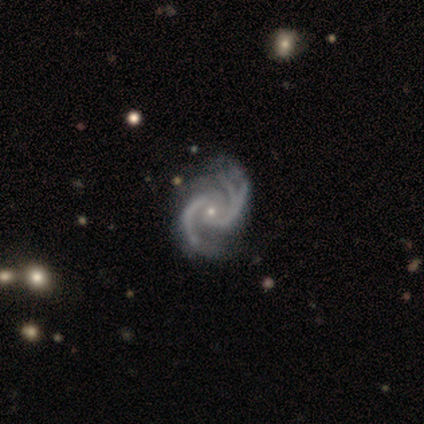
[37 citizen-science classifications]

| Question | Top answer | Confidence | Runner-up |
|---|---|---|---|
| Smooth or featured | featured or disk | 100% | — |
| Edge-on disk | no | 100% | — |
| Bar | no | 76% | weak (16%) |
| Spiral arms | yes | 100% | — |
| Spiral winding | medium | 54% | tight (24%) |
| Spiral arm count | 2 | 59% | 3 (32%) |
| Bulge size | small | 76% | moderate (22%) |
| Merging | none | 35% | minor disturbance (19%) |